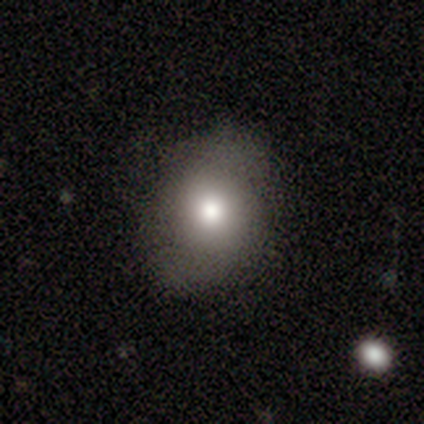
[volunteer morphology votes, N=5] Smooth or featured?
  - smooth: 80% *
  - featured or disk: 20%
  - star or artifact: 0%
How rounded?
  - round: 75% *
  - in between: 25%
  - cigar-shaped: 0%
Merging?
  - none: 80% *
  - major disturbance: 20%
  - minor disturbance: 0%
  - merger: 0%